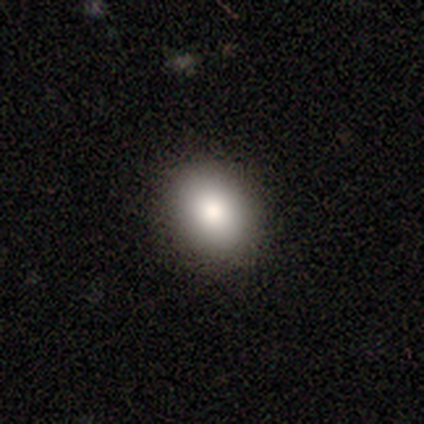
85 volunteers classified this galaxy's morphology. Overall: smooth (87%). How rounded: in between (55%; round 45%). Merging: none (95%).